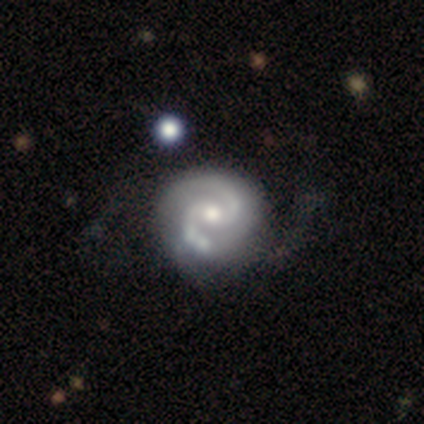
Smooth or featured? 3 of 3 (100%) said featured or disk. Edge-on disk? 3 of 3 (100%) said no. Bar? 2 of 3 (67%) said weak. Spiral arms? 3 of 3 (100%) said yes. Spiral winding? 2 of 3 (67%) said medium. Spiral arm count? 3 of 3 (100%) said 2. Bulge size? 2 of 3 (67%) said moderate. Merging? 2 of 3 (67%) said none.